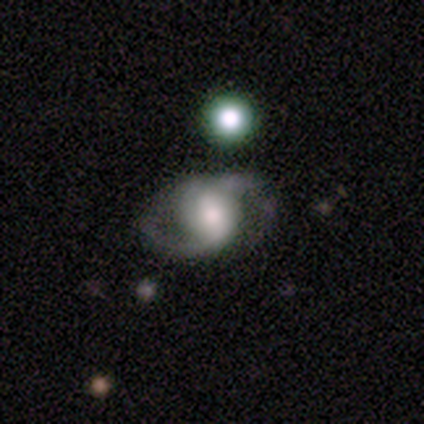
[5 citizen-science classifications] Smooth or featured? 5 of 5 (100%) said featured or disk. Edge-on disk? 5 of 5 (100%) said no. Bar? 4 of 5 (80%) said no. Spiral arms? 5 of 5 (100%) said yes. Spiral winding? 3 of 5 (60%) said medium. Spiral arm count? 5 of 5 (100%) said 2. Bulge size? 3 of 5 (60%) said moderate. Merging? 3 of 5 (60%) said none.